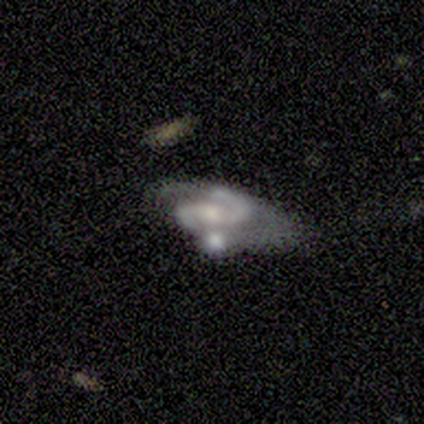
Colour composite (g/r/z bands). It shows a featured or disk galaxy (100%) with a weak bar (38%, tied with no), 2 (100%) medium (62%) spiral arms (100%) and a moderate central bulge (50%). Merging: none (44%, tied with merger).